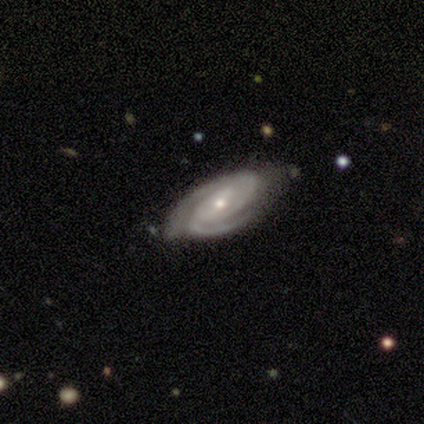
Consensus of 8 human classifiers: featured or disk 88%, star or artifact 12%, smooth 0%. Down the decision tree: edge-on disk — no (100%); bar — no (71%); spiral arms — yes (100%); spiral arm count — 2 (86%); spiral winding — tight (57%); bulge size — small (57%); merging — none (86%).